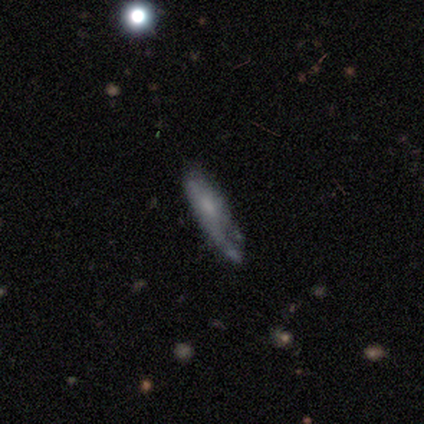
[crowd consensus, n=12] Q: Smooth or featured?
A: featured or disk (58%); runner-up: smooth (33%)
Q: Edge-on disk?
A: no (57%); runner-up: yes (43%)
Q: Bar?
A: no (75%); runner-up: strong (25%)
Q: Spiral arms?
A: no (75%); runner-up: yes (25%)
Q: Bulge size?
A: large (25%); tied with: moderate (25%); small (25%); none (25%)
Q: Merging?
A: none (45%); runner-up: minor disturbance (27%)